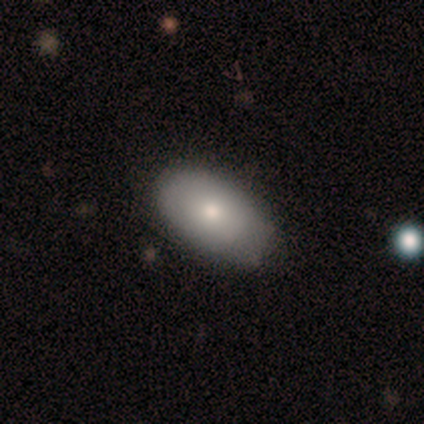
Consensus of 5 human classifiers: Smooth or featured? smooth (80%)
How rounded? in between (100%)
Merging? none (100%)